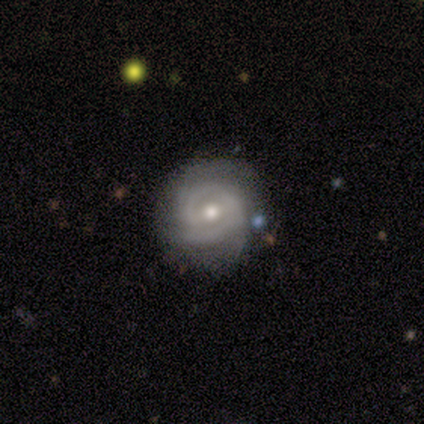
Smooth or featured?
  - featured or disk: 100% *
  - smooth: 0%
  - star or artifact: 0%
Edge-on disk?
  - no: 92% *
  - yes: 8%
Bar?
  - weak: 73% *
  - no: 27%
  - strong: 0%
Spiral arms?
  - yes: 100% *
  - no: 0%
Spiral winding?
  - tight: 73% *
  - medium: 27%
  - loose: 0%
Spiral arm count?
  - 2: 36% * (tied)
  - can't tell: 36% * (tied)
  - 3: 27%
  - 1: 0%
  - 4: 0%
  - more than 4: 0%
Bulge size?
  - moderate: 73% *
  - small: 27%
  - dominant: 0%
  - large: 0%
  - none: 0%
Merging?
  - none: 67% *
  - minor disturbance: 17%
  - merger: 17%
  - major disturbance: 0%